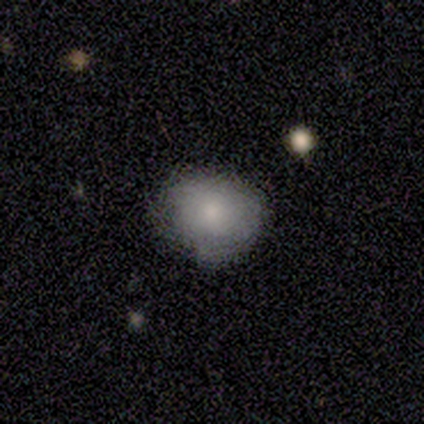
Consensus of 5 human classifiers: A smooth galaxy with no disk features (80%) that is round (100%). Merging: none (100%).